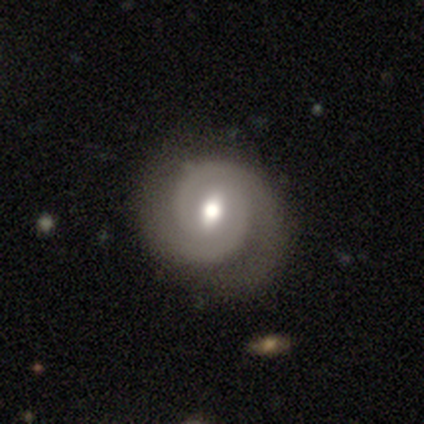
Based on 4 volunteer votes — This is clearly a featured or disk galaxy (100%). It is clearly not viewed edge-on (100%). Bar: possibly strong (50%, tied with weak). Spiral arm pattern: clearly yes (100%). Spiral arm count: likely 2 (75%). Spiral winding: possibly tight (50%). Central bulge: likely moderate (75%). Merging: clearly none (100%).